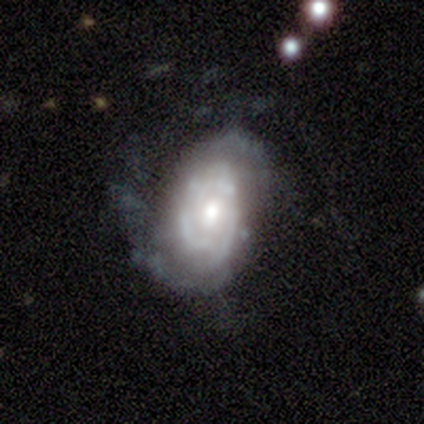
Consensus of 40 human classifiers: smooth-or-featured: featured or disk: 78% | smooth: 18% | star or artifact: 5%
  disk-edge-on: no: 97% | yes: 3%
    bar: no: 73% | weak: 27% | strong: 0%
    has-spiral-arms: yes: 83% | no: 17%
      spiral-winding: tight: 56% | loose: 24% | medium: 20%
      spiral-arm-count: can't tell: 36% | 2: 28% | 3: 28% | 1: 4% | more than 4: 4% | 4: 0%
    bulge-size: moderate: 63% | small: 23% | large: 13% | dominant: 0% | none: 0%
  merging: none: 47% | major disturbance: 34% | minor disturbance: 13% | merger: 5%